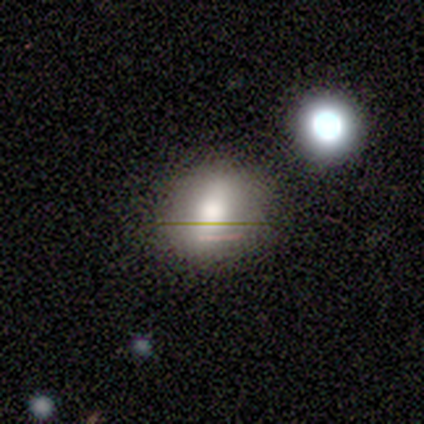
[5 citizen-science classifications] Volunteers were most divided on "how rounded" (2-way tie): round: 50%, in between: 50%, cigar-shaped: 0%. More confident: smooth or featured — smooth (80%); merging — none (80%).